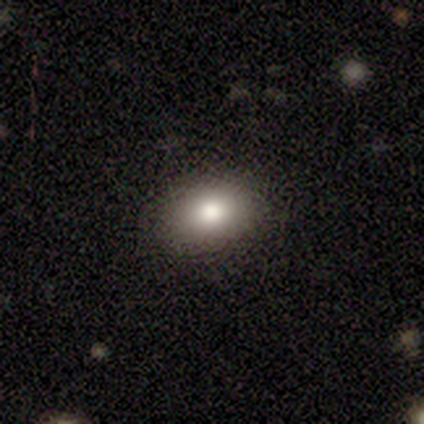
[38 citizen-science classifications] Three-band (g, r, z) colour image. It shows a smooth galaxy with no disk features (82%) that is in between round and cigar-shaped (77%). Merging: none (91%).